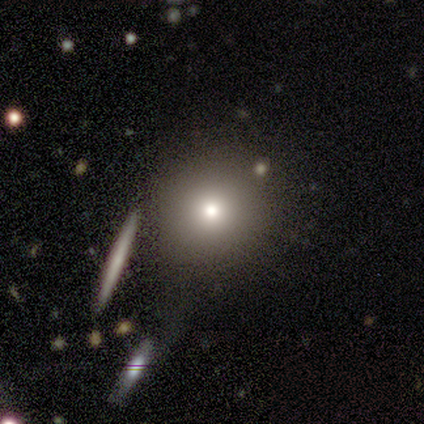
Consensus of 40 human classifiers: A smooth galaxy with no disk features (80%) that is round (97%).

Vote fractions:
- Smooth or featured? smooth: 80% / star or artifact: 12% / featured or disk: 8%
- How rounded? round: 97% / in between: 3% / cigar-shaped: 0%
- Merging? none: 74% / minor disturbance: 11% / major disturbance: 9% / merger: 6%